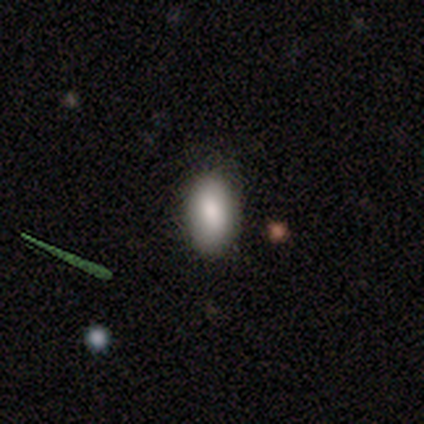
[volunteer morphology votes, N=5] Volunteers were most divided on "how rounded": in between: 80%, cigar-shaped: 20%, round: 0%. More confident: smooth or featured — smooth (100%); merging — none (100%).